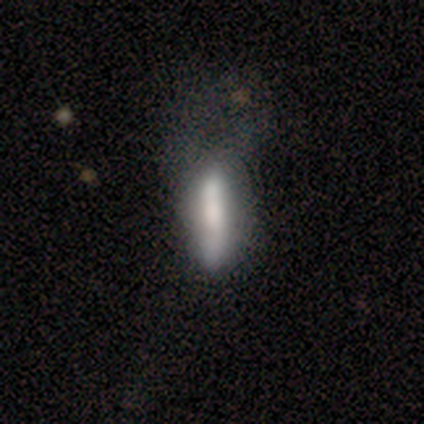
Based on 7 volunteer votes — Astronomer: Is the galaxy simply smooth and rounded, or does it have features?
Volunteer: smooth — 57% (runner-up: featured or disk, 43%).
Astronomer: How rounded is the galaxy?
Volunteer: cigar-shaped — 100%.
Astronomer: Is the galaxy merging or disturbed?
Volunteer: major disturbance — 57%.